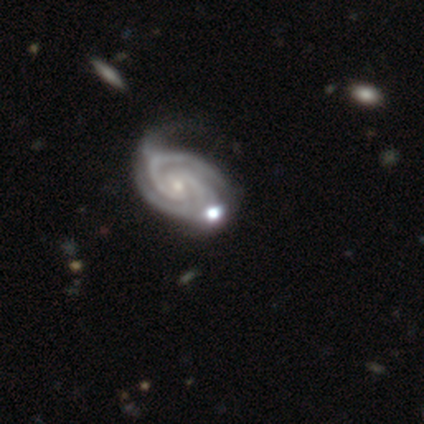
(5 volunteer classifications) This is clearly a featured or disk galaxy (100%). It is clearly not viewed edge-on (100%). Bar: likely no (60%). Spiral arm pattern: clearly yes (100%). Spiral arm count: likely 3 (60%). Spiral winding: likely tight (60%). Central bulge: likely small (60%). Merging: likely minor disturbance (60%).